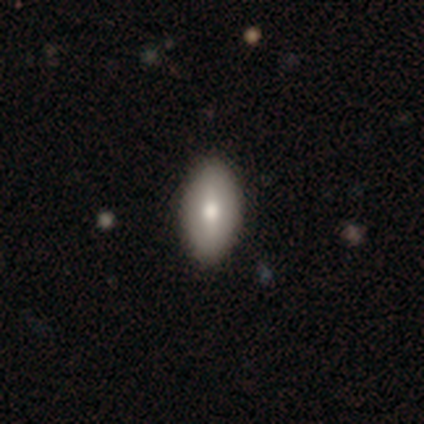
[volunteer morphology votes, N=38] Q: Smooth or featured?
A: smooth (63%); runner-up: featured or disk (29%)
Q: How rounded?
A: in between (96%); runner-up: cigar-shaped (4%)
Q: Merging?
A: none (91%); runner-up: minor disturbance (3%)